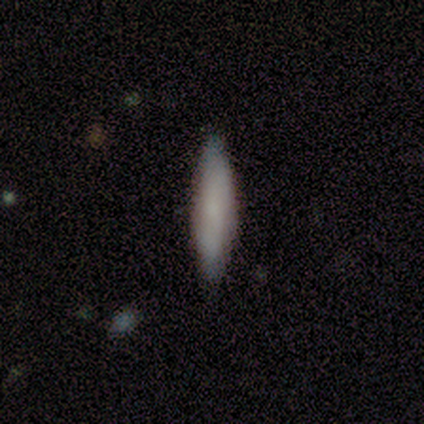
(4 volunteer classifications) Morphology: type=smooth (100%); roundness=cigar-shaped (75%); merging=none (75%).